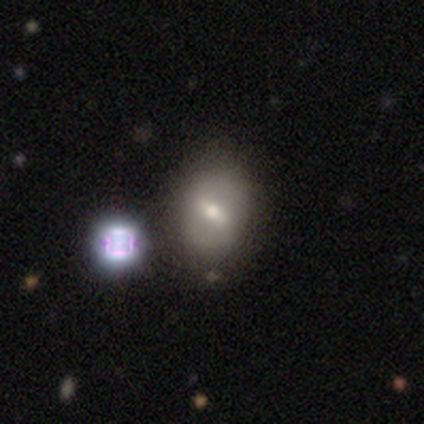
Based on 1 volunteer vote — Q: Smooth or featured?
A: featured or disk (100%)
Q: Edge-on disk?
A: no (100%)
Q: Bar?
A: strong (100%)
Q: Spiral arms?
A: yes (100%)
Q: Spiral winding?
A: medium (100%)
Q: Spiral arm count?
A: 2 (100%)
Q: Bulge size?
A: moderate (100%)
Q: Merging?
A: none (100%)